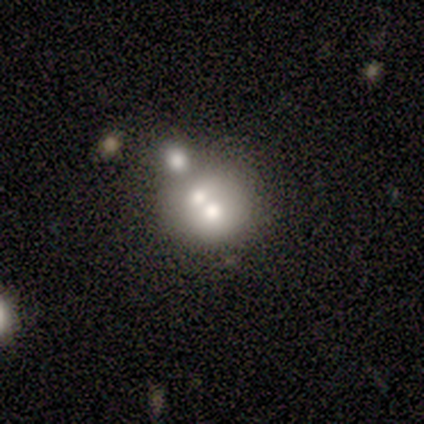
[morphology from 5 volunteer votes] Smooth or featured?
  - smooth: 80% *
  - star or artifact: 20%
  - featured or disk: 0%
How rounded?
  - round: 75% *
  - in between: 25%
  - cigar-shaped: 0%
Merging?
  - merger: 75% *
  - none: 25%
  - minor disturbance: 0%
  - major disturbance: 0%